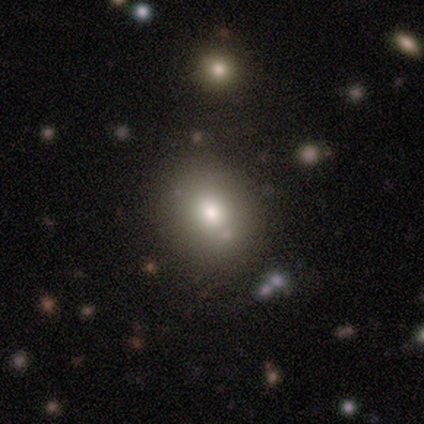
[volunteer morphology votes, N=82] Overall: smooth (74%). How rounded: round (62%; in between 38%). Merging: none (84%).